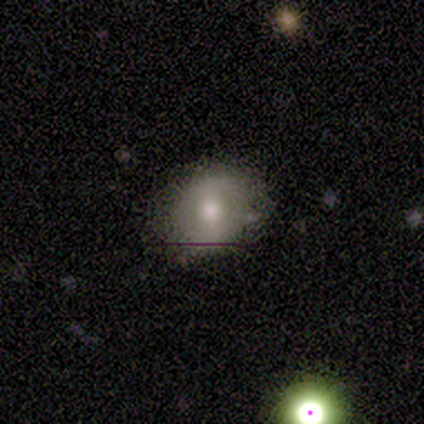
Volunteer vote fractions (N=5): smooth-or-featured: smooth: 60% | featured or disk: 40% | star or artifact: 0%
  how-rounded: round: 67% | in between: 33% | cigar-shaped: 0%
  merging: none: 100% | minor disturbance: 0% | major disturbance: 0% | merger: 0%